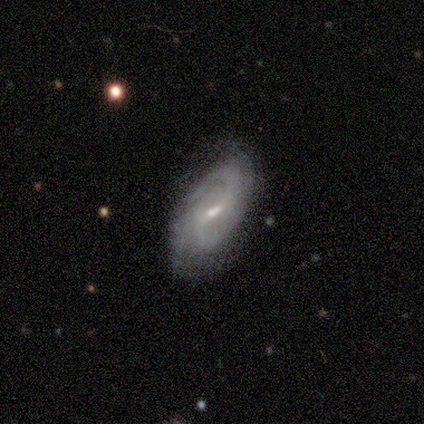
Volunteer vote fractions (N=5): smooth-or-featured: featured or disk: 100% | smooth: 0% | star or artifact: 0%
  disk-edge-on: no: 80% | yes: 20%
    bar: weak: 75% | no: 25% | strong: 0%
    has-spiral-arms: yes: 100% | no: 0%
      spiral-winding: medium: 75% | loose: 25% | tight: 0%
      spiral-arm-count: 2: 50% | 4: 25% | can't tell: 25% | 1: 0% | 3: 0% | more than 4: 0%
    bulge-size: small: 100% | dominant: 0% | large: 0% | moderate: 0% | none: 0%
  merging: minor disturbance: 40% (tied) | major disturbance: 40% (tied) | none: 20% | merger: 0%